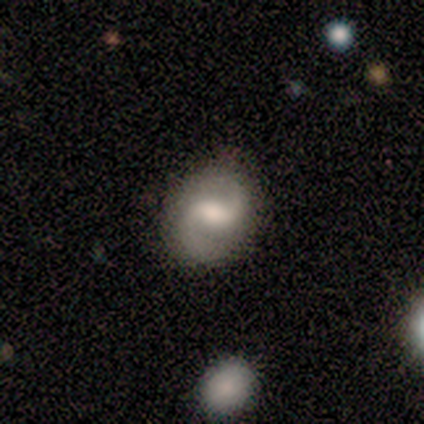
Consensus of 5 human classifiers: Q: Smooth or featured?
A: featured or disk (100%)
Q: Edge-on disk?
A: no (100%)
Q: Bar?
A: weak (100%)
Q: Spiral arms?
A: yes (100%)
Q: Spiral winding?
A: medium (80%); runner-up: tight (20%)
Q: Spiral arm count?
A: 2 (100%)
Q: Bulge size?
A: moderate (40%); tied with: small (40%)
Q: Merging?
A: none (100%)